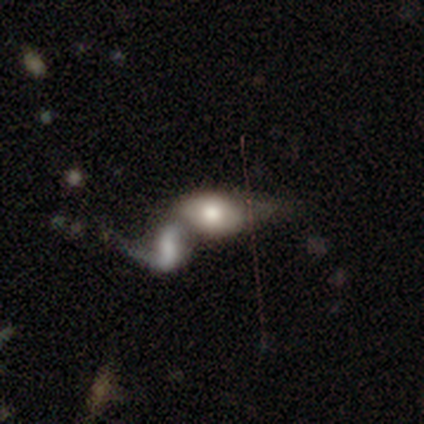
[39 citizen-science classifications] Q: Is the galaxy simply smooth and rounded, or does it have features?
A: smooth — 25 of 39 (64%).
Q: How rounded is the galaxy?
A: in between — 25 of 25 (100%).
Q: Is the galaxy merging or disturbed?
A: merger — 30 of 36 (83%).